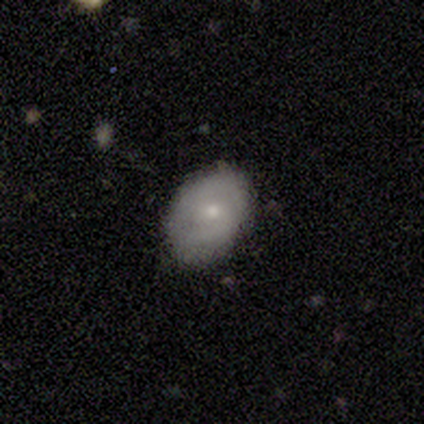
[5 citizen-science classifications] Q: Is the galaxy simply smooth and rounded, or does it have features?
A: featured or disk — 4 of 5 (80%).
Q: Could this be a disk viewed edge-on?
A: no — 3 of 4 (75%).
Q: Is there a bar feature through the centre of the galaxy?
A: weak — 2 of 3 (67%).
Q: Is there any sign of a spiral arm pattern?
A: yes — 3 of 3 (100%).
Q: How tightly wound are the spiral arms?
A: medium — 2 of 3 (67%).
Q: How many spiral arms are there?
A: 2 — 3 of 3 (100%).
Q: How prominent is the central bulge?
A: small — 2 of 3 (67%).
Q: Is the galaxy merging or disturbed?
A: none — 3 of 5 (60%).